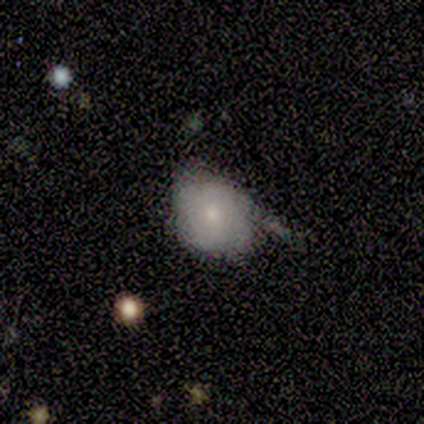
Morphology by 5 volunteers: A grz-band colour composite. It shows a smooth galaxy with no disk features (100%) that is round (80%). Merging: none (80%).